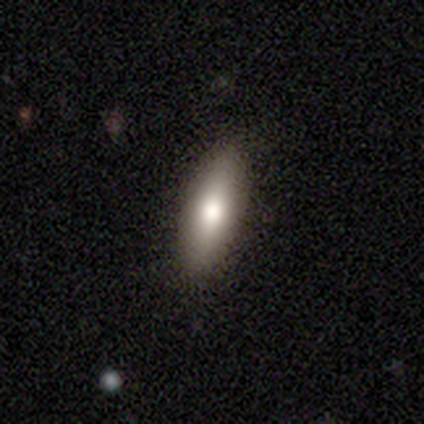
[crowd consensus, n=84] A smooth galaxy with no disk features (77%) that is in between round and cigar-shaped (52%). Merging: none (81%).